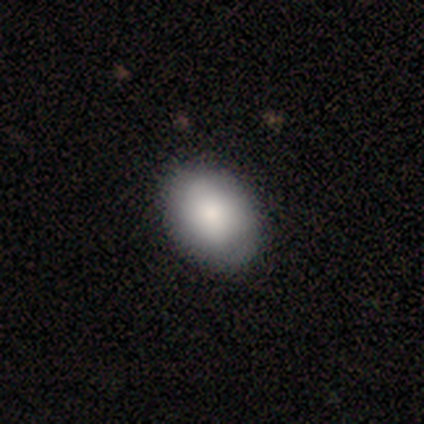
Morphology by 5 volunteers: type=smooth (100%); roundness=in between (80%); merging=none (80%).